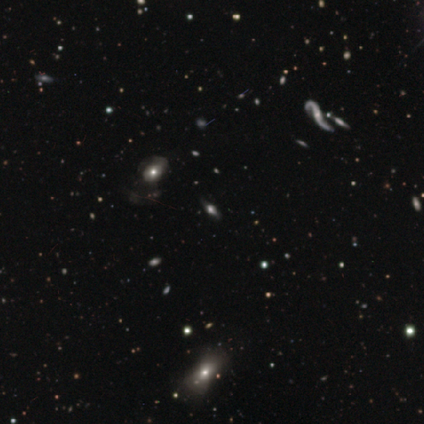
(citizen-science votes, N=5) A featured or disk galaxy (60%) viewed edge-on (67%) with a rounded central bulge (100%). Merging: none (100%).